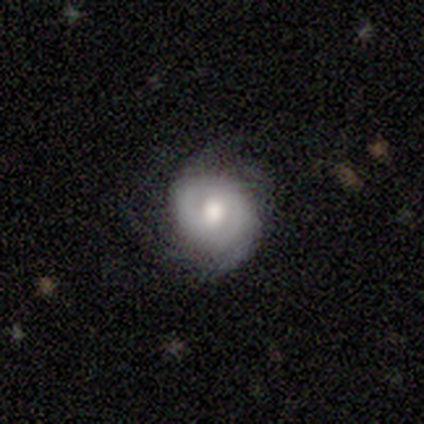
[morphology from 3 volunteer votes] A featured or disk galaxy (67%) with a strong bar (50%, tied with no), tight (50%, tied with loose) spiral arms (100%) and a large central bulge (50%, tied with moderate).

Vote fractions:
- Smooth or featured? featured or disk: 67% / smooth: 33% / star or artifact: 0%
- Edge-on disk? no: 100% / yes: 0%
- Bar? strong: 50% (tied) / no: 50% (tied) / weak: 0%
- Spiral arms? yes: 100% / no: 0%
- Spiral winding? tight: 50% (tied) / loose: 50% (tied) / medium: 0%
- Spiral arm count? can't tell: 100% / 1: 0% / 2: 0% / 3: 0% / 4: 0% / more than 4: 0%
- Bulge size? large: 50% (tied) / moderate: 50% (tied) / dominant: 0% / small: 0% / none: 0%
- Merging? minor disturbance: 67% / none: 33% / major disturbance: 0% / merger: 0%